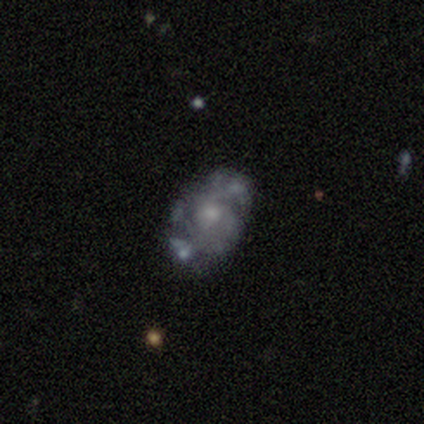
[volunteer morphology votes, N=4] Smooth or featured? 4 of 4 (100%) said featured or disk. Edge-on disk? 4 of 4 (100%) said no. Bar? 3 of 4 (75%) said no. Spiral arms? 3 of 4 (75%) said yes. Spiral winding? 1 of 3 (33%, tied with medium and loose) said tight. Spiral arm count? 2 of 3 (67%) said 2. Bulge size? 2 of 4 (50%, tied with small) said moderate. Merging? 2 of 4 (50%) said none.